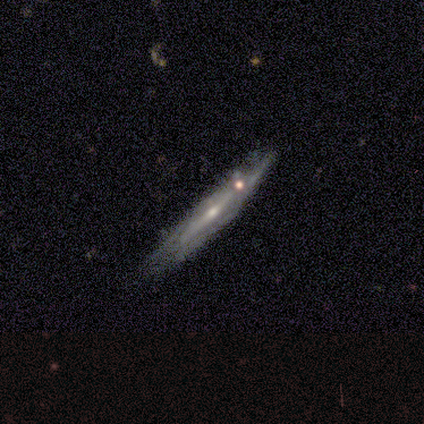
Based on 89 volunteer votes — This appears to be a featured or disk galaxy (85%) viewed edge-on (66%) with a rounded central bulge (68%). Merging: none (56%).